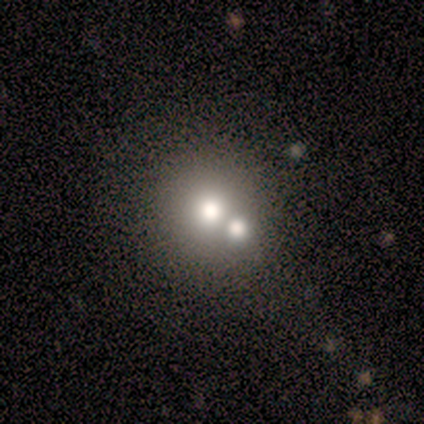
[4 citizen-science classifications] Smooth or featured? smooth (75%)
How rounded? round (100%)
Merging? merger (75%)